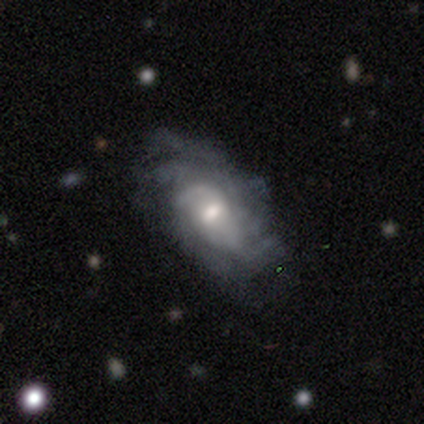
Smooth or featured: featured or disk — 69% (smooth — 21%)
Edge-on disk: no — 96% (yes — 4%)
Bar: no — 58% (weak — 42%)
Spiral arms: yes — 88% (no — 12%)
Spiral winding: medium — 35% (tied with loose — 35%)
Spiral arm count: can't tell — 39% (3 — 22%)
Bulge size: moderate — 69% (small — 27%)
Merging: none — 66% (minor disturbance — 20%)